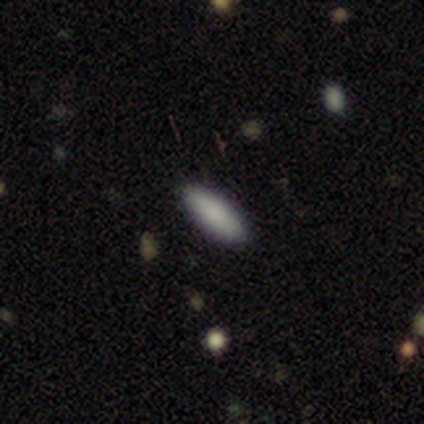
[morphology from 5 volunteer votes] Volunteers were most divided on "how rounded": cigar-shaped: 75%, in between: 25%, round: 0%. More confident: smooth or featured — smooth (80%); merging — none (80%).